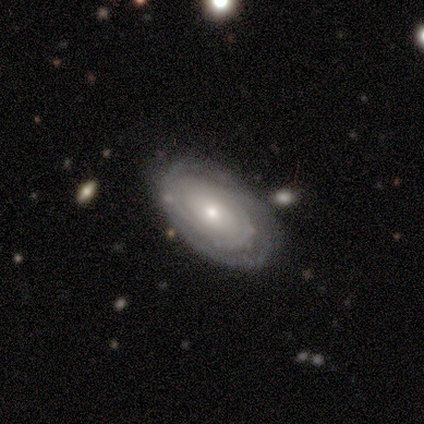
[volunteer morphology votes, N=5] A featured or disk galaxy (100%) with no bar (100%), tight (67%) spiral arms (60%) and a moderate central bulge (60%).

Vote fractions:
- Smooth or featured? featured or disk: 100% / smooth: 0% / star or artifact: 0%
- Edge-on disk? no: 100% / yes: 0%
- Bar? no: 100% / strong: 0% / weak: 0%
- Spiral arms? yes: 60% / no: 40%
- Spiral winding? tight: 67% / medium: 33% / loose: 0%
- Spiral arm count? can't tell: 67% / 3: 33% / 1: 0% / 2: 0% / 4: 0% / more than 4: 0%
- Bulge size? moderate: 60% / small: 40% / dominant: 0% / large: 0% / none: 0%
- Merging? none: 100% / minor disturbance: 0% / major disturbance: 0% / merger: 0%